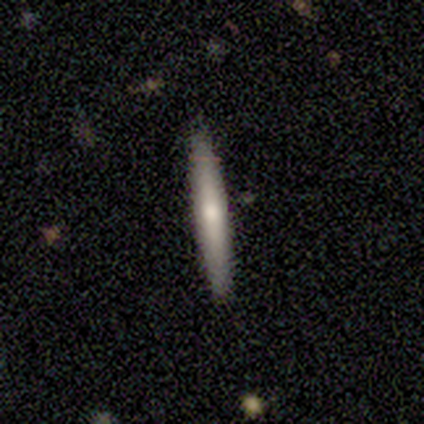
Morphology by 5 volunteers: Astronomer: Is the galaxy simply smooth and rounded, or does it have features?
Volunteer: featured or disk — 60% (runner-up: smooth, 40%).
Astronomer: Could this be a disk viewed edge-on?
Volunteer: yes — 100%.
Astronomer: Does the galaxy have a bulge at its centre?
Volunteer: rounded — 100%.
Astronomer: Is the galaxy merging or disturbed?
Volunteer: none — 100%.